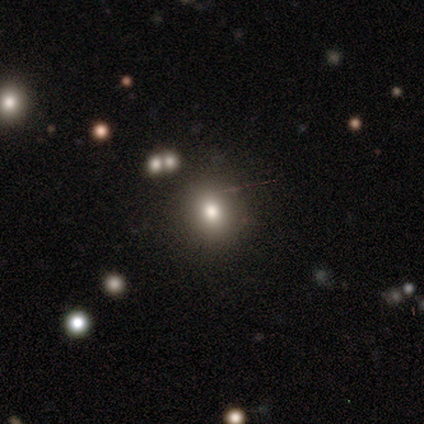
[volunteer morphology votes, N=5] Volunteers were most divided on "smooth or featured": smooth: 60%, featured or disk: 20%, star or artifact: 20%. More confident: how rounded — round (100%); merging — none (100%).